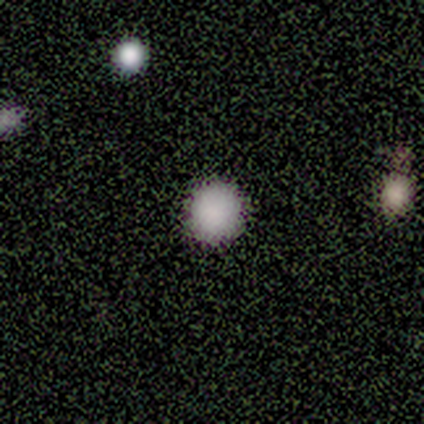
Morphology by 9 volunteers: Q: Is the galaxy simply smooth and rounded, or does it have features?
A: smooth — 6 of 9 (67%).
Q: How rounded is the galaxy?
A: round — 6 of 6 (100%).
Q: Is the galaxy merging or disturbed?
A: none — 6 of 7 (86%).